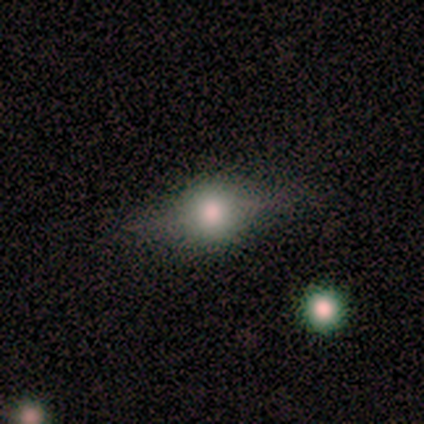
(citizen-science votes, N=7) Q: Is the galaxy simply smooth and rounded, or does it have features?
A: featured or disk — 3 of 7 (43%).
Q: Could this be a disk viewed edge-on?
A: yes — 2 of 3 (67%).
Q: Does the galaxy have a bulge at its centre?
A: rounded — 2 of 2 (100%).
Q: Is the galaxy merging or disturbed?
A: none — 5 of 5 (100%).